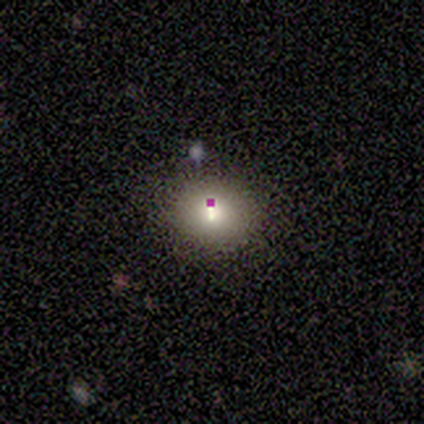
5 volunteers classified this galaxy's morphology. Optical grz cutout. It shows a smooth galaxy with no disk features (60%) that is round (100%). Merging: none (100%).